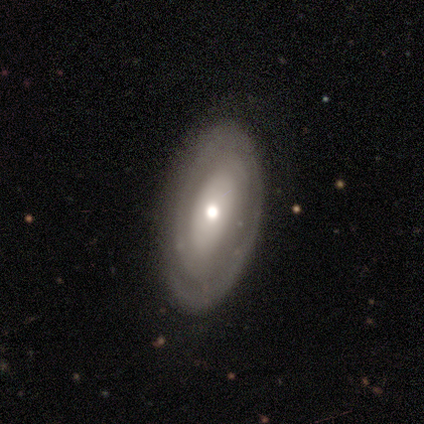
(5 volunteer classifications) Overall: featured or disk (60%; smooth 40%). Edge-on disk: no (100%). Bar: no (67%; strong 33%). Spiral arms: yes (67%; no 33%). Spiral arm count: can't tell (100%). Spiral winding: medium (100%). Bulge size: moderate (100%). Merging: none (100%).